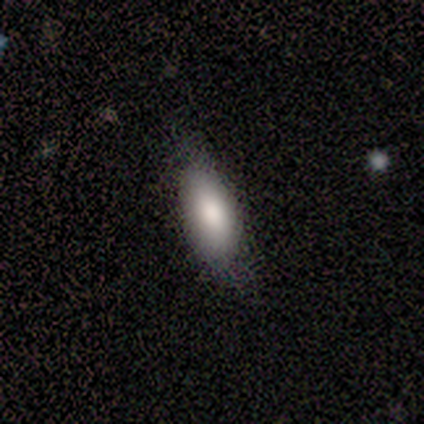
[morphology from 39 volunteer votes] This is clearly a smooth galaxy (85%). How rounded: likely in between (70%). Merging: likely none (74%).